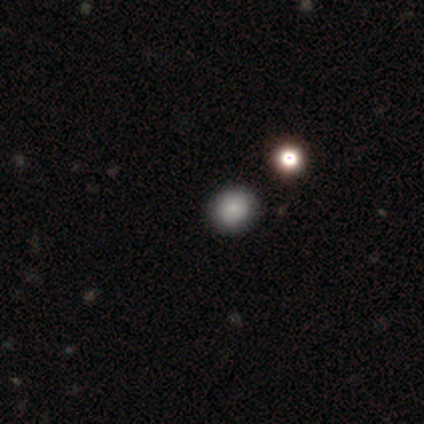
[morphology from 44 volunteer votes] Volunteers were most divided on "smooth or featured": smooth: 82%, star or artifact: 14%, featured or disk: 5%. More confident: how rounded — round (89%); merging — none (87%).